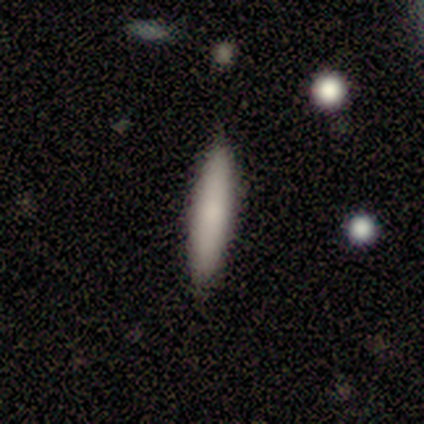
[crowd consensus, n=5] A smooth galaxy with no disk features (80%) that is cigar-shaped (100%). Merging: none (100%).